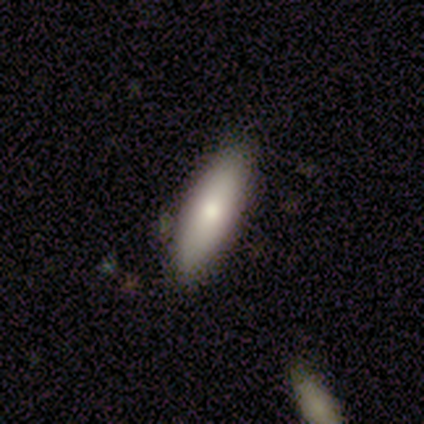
Smooth or featured? smooth (100%)
How rounded? cigar-shaped (60%)
Merging? none (100%)